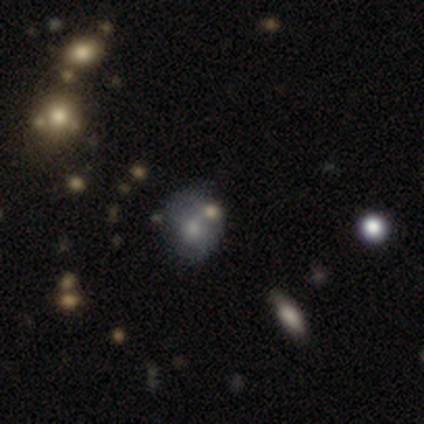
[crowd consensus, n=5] Volunteers were most divided on "how rounded" (2-way tie): round: 50%, in between: 50%, cigar-shaped: 0%. More confident: smooth or featured — smooth (80%); merging — none (50%).